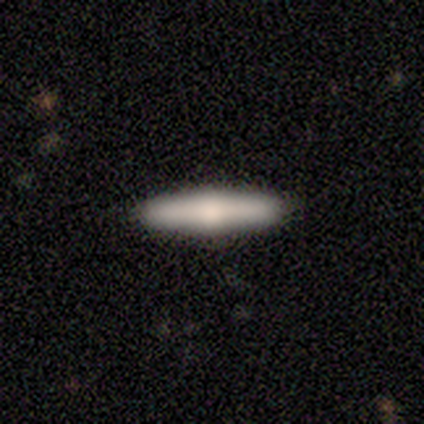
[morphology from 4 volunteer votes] smooth_or_featured: smooth (p=0.50) [tied with: featured or disk p=0.50]
how_rounded: cigar-shaped (p=1.00)
merging: none (p=0.75) [alt: merger p=0.25]